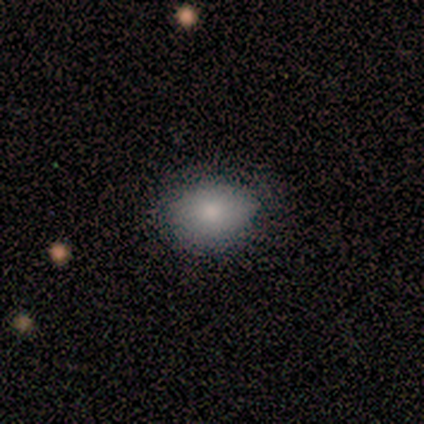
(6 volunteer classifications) Morphology: type=smooth (100%); roundness=round (50%, tied with in between); merging=none (83%).